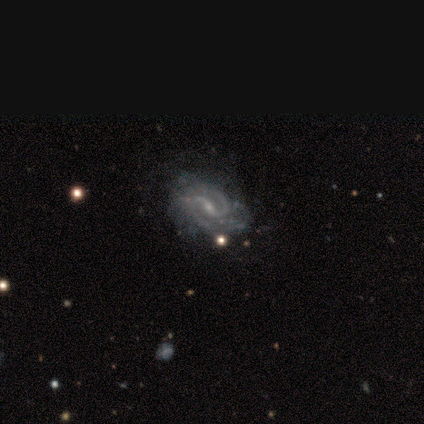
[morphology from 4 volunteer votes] Volunteers were most divided on "bar": strong: 50%, weak: 25%, no: 25%. More confident: smooth or featured — featured or disk (100%); edge-on disk — no (100%); spiral arms — yes (100%); spiral arm count — 2 (100%); spiral winding — medium (50%); bulge size — small (50%); merging — none (50%).